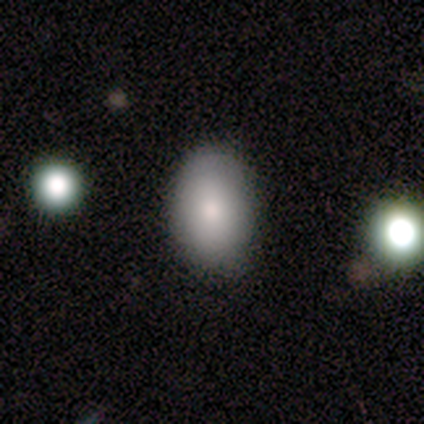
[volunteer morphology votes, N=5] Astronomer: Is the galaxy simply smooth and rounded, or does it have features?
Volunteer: smooth — 100%.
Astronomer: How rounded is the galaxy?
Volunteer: in between — 80%.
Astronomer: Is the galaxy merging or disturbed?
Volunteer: none — 80%.